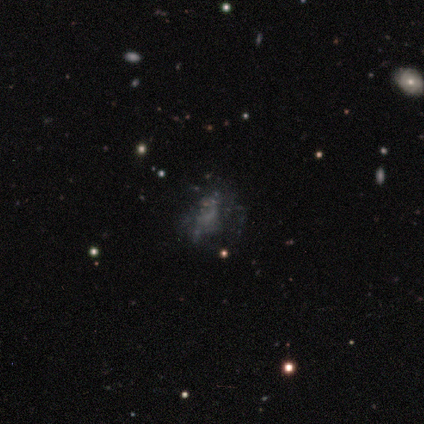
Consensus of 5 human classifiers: featured or disk 60%, smooth 20%, star or artifact 20%. Down the decision tree: edge-on disk — no (100%); bar — no (100%); spiral arms — no (100%); bulge size — none (100%); merging — none (50%).